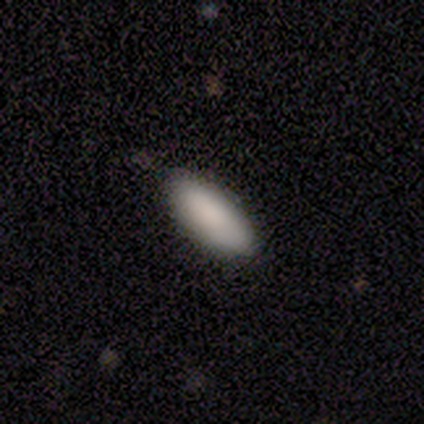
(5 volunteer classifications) Smooth or featured?
  - smooth: 100% *
  - featured or disk: 0%
  - star or artifact: 0%
How rounded?
  - in between: 80% *
  - cigar-shaped: 20%
  - round: 0%
Merging?
  - none: 100% *
  - minor disturbance: 0%
  - major disturbance: 0%
  - merger: 0%